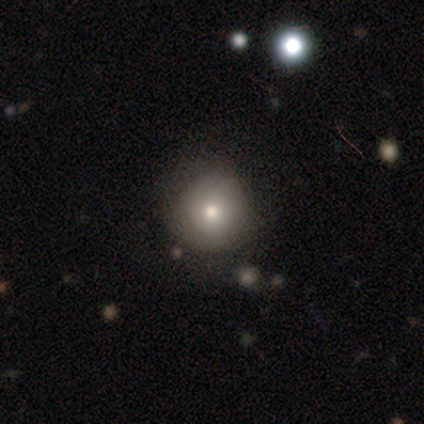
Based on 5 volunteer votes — This is likely a smooth galaxy (60%). How rounded: clearly round (100%). Merging: marginally none (33%, tied with minor disturbance and major disturbance).